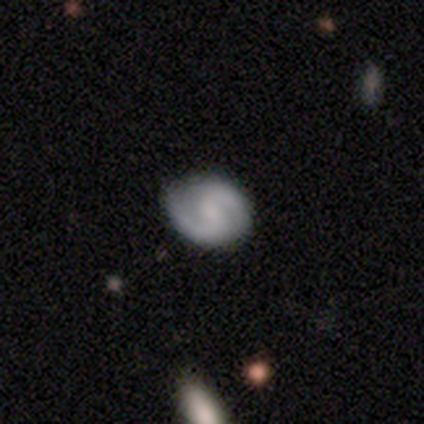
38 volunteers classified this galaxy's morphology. Q: Smooth or featured?
A: featured or disk (74%); runner-up: smooth (16%)
Q: Edge-on disk?
A: no (100%)
Q: Bar?
A: no (50%); runner-up: weak (46%)
Q: Spiral arms?
A: yes (93%); runner-up: no (7%)
Q: Spiral winding?
A: medium (42%); runner-up: loose (31%)
Q: Spiral arm count?
A: 2 (100%)
Q: Bulge size?
A: none (57%); runner-up: moderate (18%)
Q: Merging?
A: none (68%); runner-up: minor disturbance (3%)